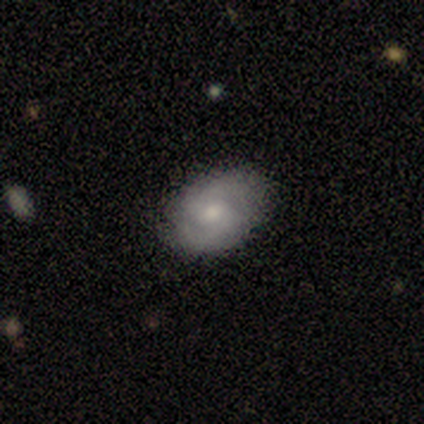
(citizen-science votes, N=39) This appears to be a featured or disk galaxy (56%) with no bar (71%), 2 (75%) medium (55%) spiral arms (95%) and a moderate central bulge (43%). Merging: none (51%).